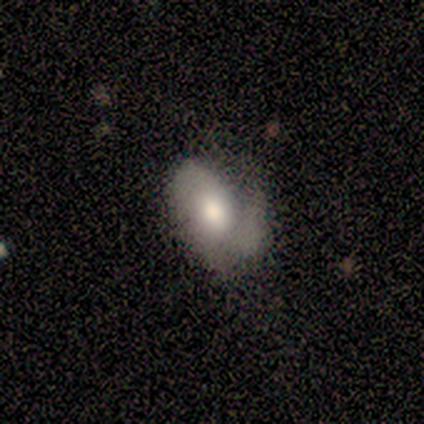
Smooth or featured?
  - featured or disk: 62% *
  - smooth: 25%
  - star or artifact: 12%
Edge-on disk?
  - no: 100% *
  - yes: 0%
Bar?
  - weak: 60% *
  - no: 40%
  - strong: 0%
Spiral arms?
  - yes: 100% *
  - no: 0%
Spiral winding?
  - loose: 60% *
  - medium: 40%
  - tight: 0%
Spiral arm count?
  - 2: 80% *
  - 3: 20%
  - 1: 0%
  - 4: 0%
  - more than 4: 0%
  - can't tell: 0%
Bulge size?
  - moderate: 60% *
  - large: 20%
  - small: 20%
  - dominant: 0%
  - none: 0%
Merging?
  - none: 71% *
  - minor disturbance: 14%
  - major disturbance: 14%
  - merger: 0%